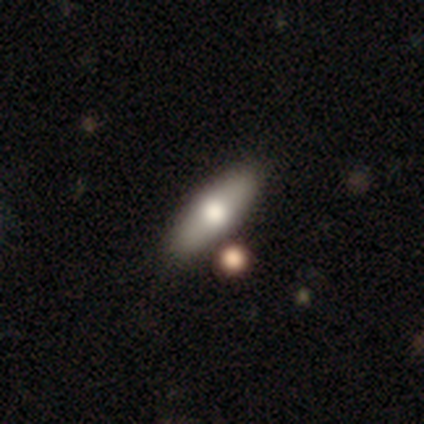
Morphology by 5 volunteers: Q: Smooth or featured?
A: smooth (60%); runner-up: featured or disk (20%)
Q: How rounded?
A: in between (67%); runner-up: cigar-shaped (33%)
Q: Merging?
A: none (100%)